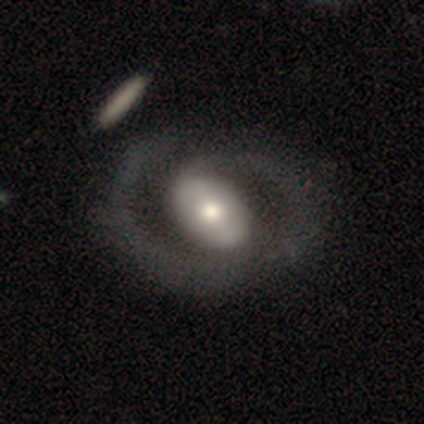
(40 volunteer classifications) Overall: featured or disk (80%). Edge-on disk: no (100%). Bar: no (41%; weak 34%). Spiral arms: yes (81%). Spiral arm count: 2 (73%). Spiral winding: medium (46%; tight 27%). Bulge size: moderate (66%). Merging: none (52%).